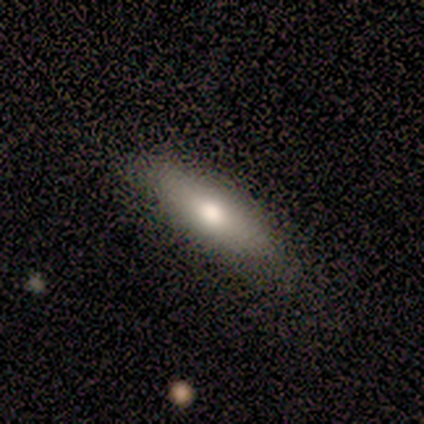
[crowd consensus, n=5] smooth-or-featured: smooth: 80% | featured or disk: 20% | star or artifact: 0%
  how-rounded: cigar-shaped: 75% | in between: 25% | round: 0%
  merging: none: 80% | major disturbance: 20% | minor disturbance: 0% | merger: 0%